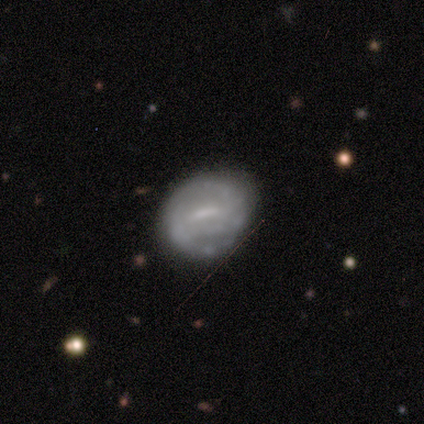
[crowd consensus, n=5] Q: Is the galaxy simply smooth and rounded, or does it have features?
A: featured or disk — 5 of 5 (100%).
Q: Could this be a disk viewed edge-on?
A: no — 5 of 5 (100%).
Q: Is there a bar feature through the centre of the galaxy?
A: strong — 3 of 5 (60%).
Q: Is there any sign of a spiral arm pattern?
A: yes — 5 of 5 (100%).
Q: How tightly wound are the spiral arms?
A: tight — 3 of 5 (60%).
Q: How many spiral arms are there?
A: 2 — 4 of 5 (80%).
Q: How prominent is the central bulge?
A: none — 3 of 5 (60%).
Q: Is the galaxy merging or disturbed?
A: none — 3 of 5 (60%).